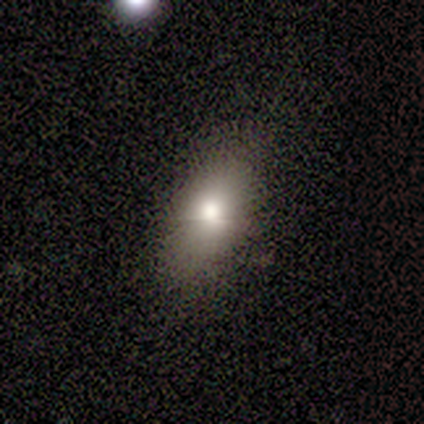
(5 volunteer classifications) This appears to be a smooth galaxy with no disk features (80%) that is round (50%, tied with in between). Merging: none (100%).